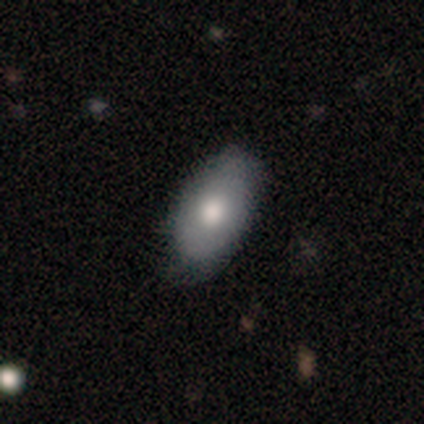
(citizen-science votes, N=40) Overall: smooth (52%; featured or disk 42%). How rounded: in between (100%). Merging: none (58%; minor disturbance 21%).